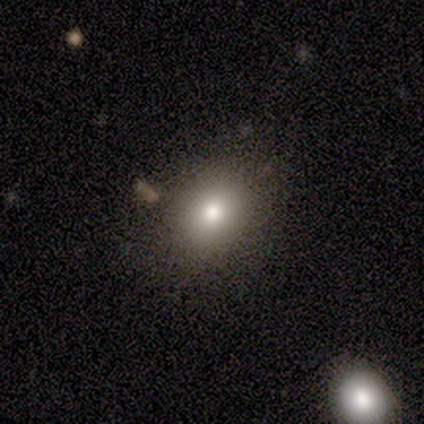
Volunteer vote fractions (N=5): A smooth galaxy with no disk features (60%) that is in between round and cigar-shaped (100%).

Vote fractions:
- Smooth or featured? smooth: 60% / star or artifact: 40% / featured or disk: 0%
- How rounded? in between: 100% / round: 0% / cigar-shaped: 0%
- Merging? none: 100% / minor disturbance: 0% / major disturbance: 0% / merger: 0%